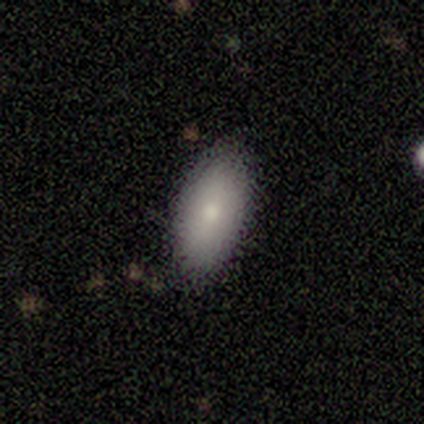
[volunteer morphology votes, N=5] smooth-or-featured: smooth: 60% | featured or disk: 40% | star or artifact: 0%
  how-rounded: in between: 100% | round: 0% | cigar-shaped: 0%
  merging: none: 100% | minor disturbance: 0% | major disturbance: 0% | merger: 0%